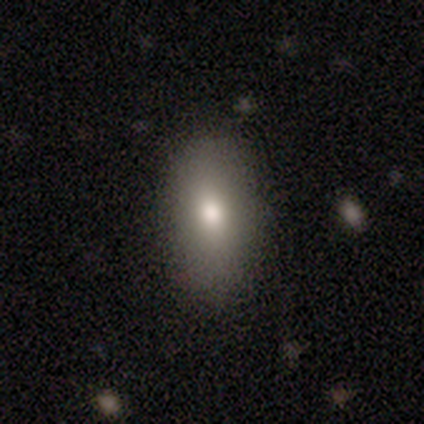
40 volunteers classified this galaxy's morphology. A smooth galaxy with no disk features (78%) that is in between round and cigar-shaped (90%).

Vote fractions:
- Smooth or featured? smooth: 78% / featured or disk: 15% / star or artifact: 8%
- How rounded? in between: 90% / cigar-shaped: 6% / round: 3%
- Merging? none: 84% / minor disturbance: 14% / merger: 3% / major disturbance: 0%